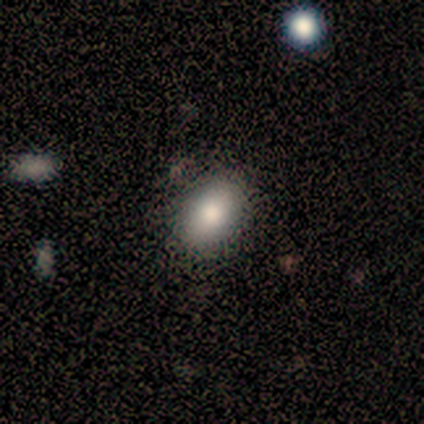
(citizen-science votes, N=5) A smooth galaxy with no disk features (100%) that is in between round and cigar-shaped (100%).

Vote fractions:
- Smooth or featured? smooth: 100% / featured or disk: 0% / star or artifact: 0%
- How rounded? in between: 100% / round: 0% / cigar-shaped: 0%
- Merging? none: 80% / minor disturbance: 20% / major disturbance: 0% / merger: 0%